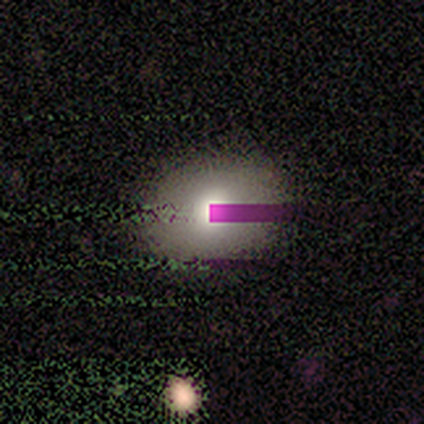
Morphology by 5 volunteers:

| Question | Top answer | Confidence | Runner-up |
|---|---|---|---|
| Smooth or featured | smooth | 40% | tied: star or artifact (40%) |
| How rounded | in between | 100% | — |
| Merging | none | 100% | — |